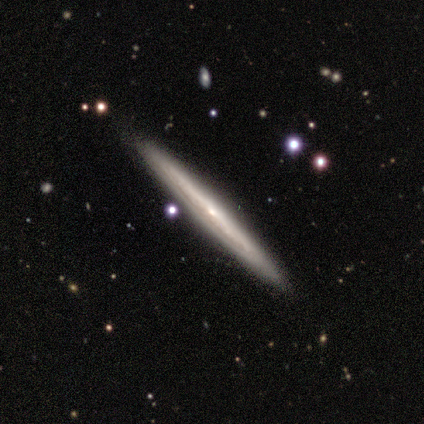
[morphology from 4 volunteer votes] A featured or disk galaxy (75%) viewed edge-on (100%) with no central bulge (100%). Merging: none (100%).